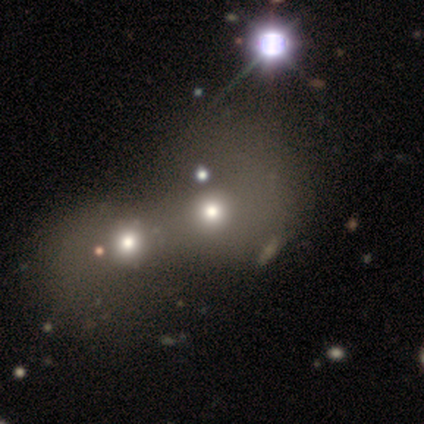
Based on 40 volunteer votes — Smooth or featured?
  - smooth: 70% *
  - featured or disk: 22%
  - star or artifact: 8%
How rounded?
  - round: 79% *
  - in between: 21%
  - cigar-shaped: 0%
Merging?
  - merger: 62% *
  - none: 14%
  - minor disturbance: 3%
  - major disturbance: 3%